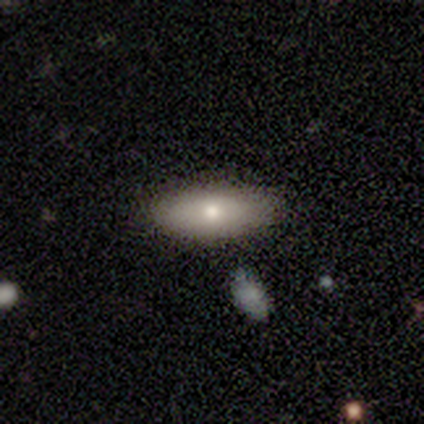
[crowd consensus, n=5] Smooth or featured: featured or disk — 60% (smooth — 40%)
Edge-on disk: no — 100%
Bar: no — 100%
Spiral arms: no — 100%
Bulge size: moderate — 67% (small — 33%)
Merging: none — 80% (minor disturbance — 20%)